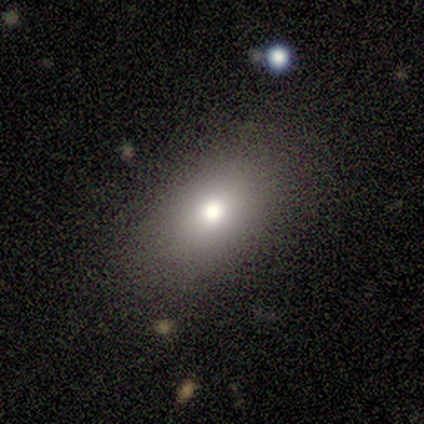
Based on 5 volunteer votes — smooth 100%, featured or disk 0%, star or artifact 0%. Down the decision tree: how rounded — round (60%); merging — none (80%).